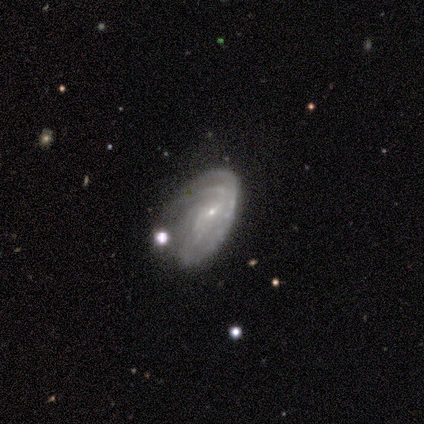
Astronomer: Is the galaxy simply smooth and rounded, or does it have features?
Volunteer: featured or disk — 75%.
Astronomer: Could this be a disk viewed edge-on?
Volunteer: no — 100%.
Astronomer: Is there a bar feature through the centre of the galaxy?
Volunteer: weak — 67%.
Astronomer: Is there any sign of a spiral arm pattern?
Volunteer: yes — 100%.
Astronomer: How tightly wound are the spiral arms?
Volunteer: tight — 67%.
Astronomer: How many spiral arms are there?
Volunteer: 2 — 67%.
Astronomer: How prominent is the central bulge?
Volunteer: small — 67%.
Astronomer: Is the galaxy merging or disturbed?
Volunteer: minor disturbance — 67%.